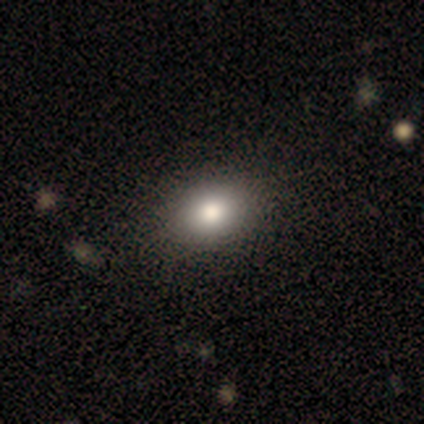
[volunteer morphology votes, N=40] smooth_or_featured: smooth (p=0.78) [alt: featured or disk p=0.20]
how_rounded: in between (p=0.65) [alt: round p=0.35]
merging: none (p=0.69) [alt: minor disturbance p=0.05]